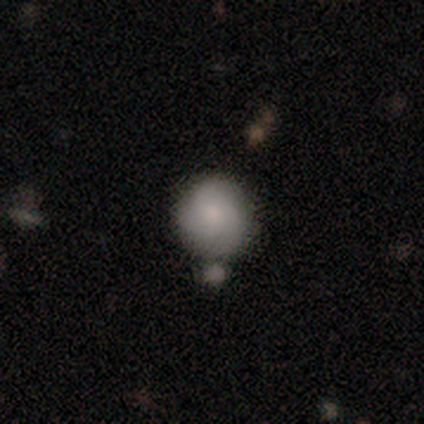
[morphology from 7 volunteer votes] smooth-or-featured: smooth: 57% | featured or disk: 29% | star or artifact: 14%
  how-rounded: round: 100% | in between: 0% | cigar-shaped: 0%
  merging: none: 67% | minor disturbance: 17% | merger: 17% | major disturbance: 0%